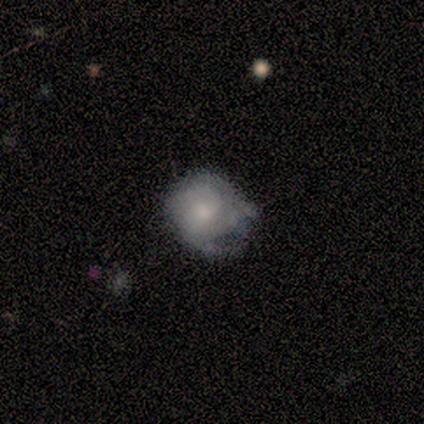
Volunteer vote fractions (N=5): A star or artifact, not a galaxy (60%).